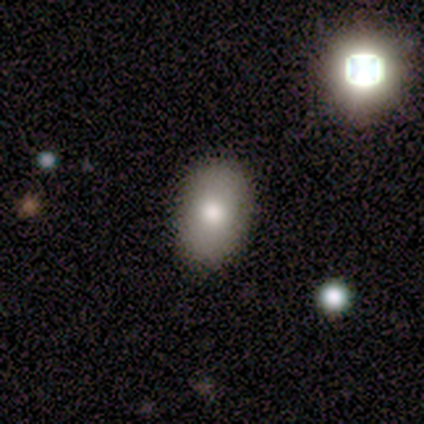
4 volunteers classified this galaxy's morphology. smooth-or-featured: smooth: 50% | featured or disk: 25% | star or artifact: 25%
  how-rounded: in between: 100% | round: 0% | cigar-shaped: 0%
  merging: none: 67% | minor disturbance: 33% | major disturbance: 0% | merger: 0%